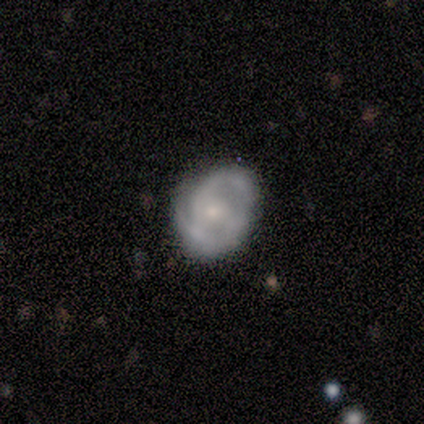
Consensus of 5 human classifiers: A featured or disk galaxy (100%) with a weak bar (60%), 2 (100%) medium (80%) spiral arms (100%) and a moderate central bulge (40%, tied with small). Merging: none (100%).